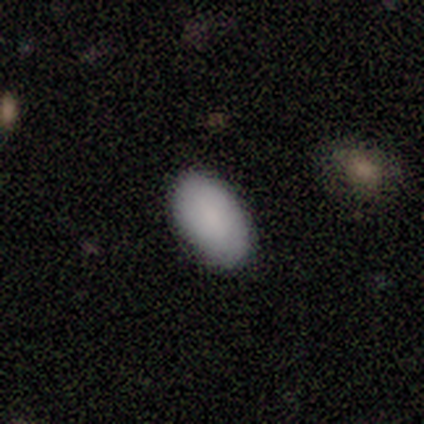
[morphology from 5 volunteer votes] type=smooth (80%); roundness=in between (100%); merging=none (80%).